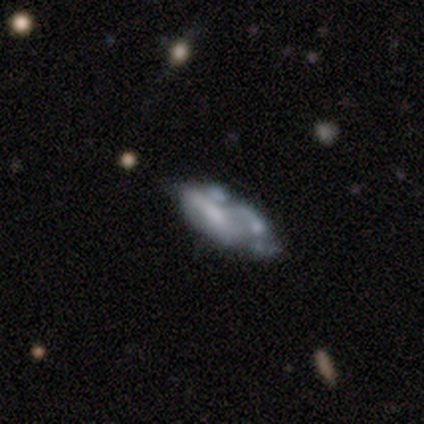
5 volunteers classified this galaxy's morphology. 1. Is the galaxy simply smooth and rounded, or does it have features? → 60% featured or disk, 40% smooth, 0% star or artifact.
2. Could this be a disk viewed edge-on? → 67% no, 33% yes.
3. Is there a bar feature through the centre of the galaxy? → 100% no, 0% strong, 0% weak.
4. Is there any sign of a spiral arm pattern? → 50% yes (tied), 50% no (tied).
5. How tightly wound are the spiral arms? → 100% loose, 0% tight, 0% medium.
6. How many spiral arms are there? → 100% can't tell, 0% 1, 0% 2, 0% 3, 0% 4, 0% more than 4.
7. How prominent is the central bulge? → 50% moderate (tied), 50% small (tied), 0% dominant, 0% large, 0% none.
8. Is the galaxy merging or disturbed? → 80% minor disturbance, 20% none, 0% major disturbance, 0% merger.